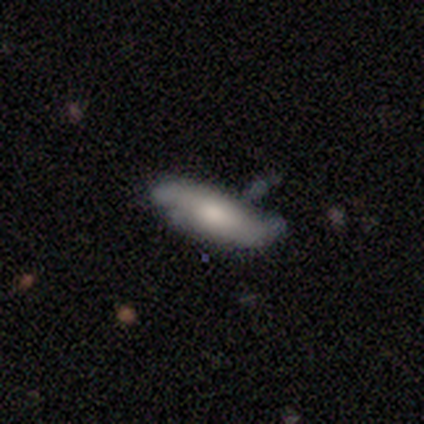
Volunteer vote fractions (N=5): This is likely a smooth galaxy (60%). How rounded: likely in between (67%). Merging: likely minor disturbance (60%).